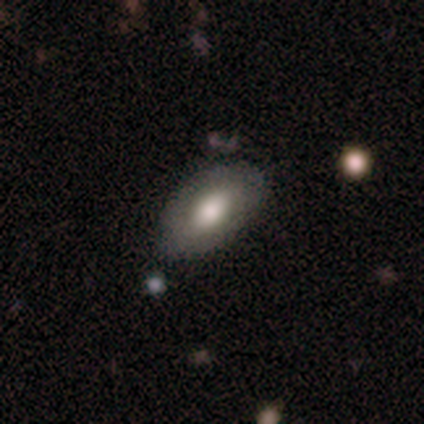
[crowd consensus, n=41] Q: Smooth or featured?
A: smooth (76%); runner-up: featured or disk (22%)
Q: How rounded?
A: in between (97%); runner-up: round (3%)
Q: Merging?
A: none (70%); runner-up: minor disturbance (20%)